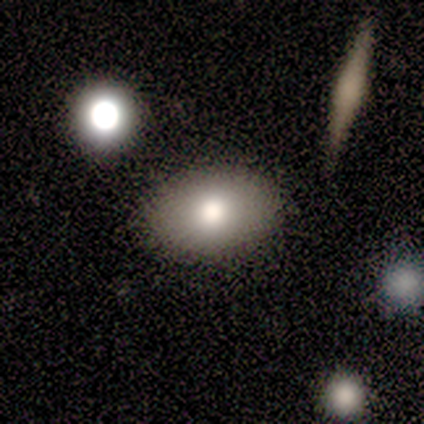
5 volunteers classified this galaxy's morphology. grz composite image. It shows a smooth galaxy with no disk features (60%) that is in between round and cigar-shaped (67%). Merging: none (67%).